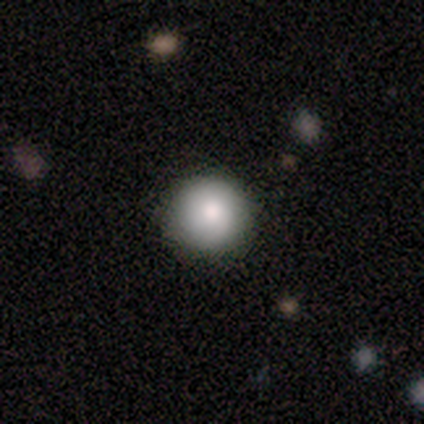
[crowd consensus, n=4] This appears to be a smooth galaxy with no disk features (100%) that is round (100%). Merging: none (100%).